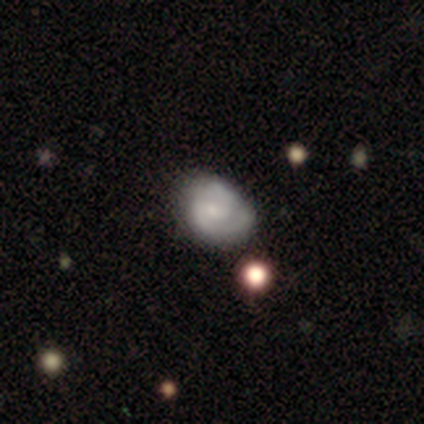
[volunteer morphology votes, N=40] This appears to be a featured or disk galaxy (57%) with no bar (77%), 2 (72%) tight (61%) spiral arms (82%) and a small central bulge (41%). Merging: none (64%).